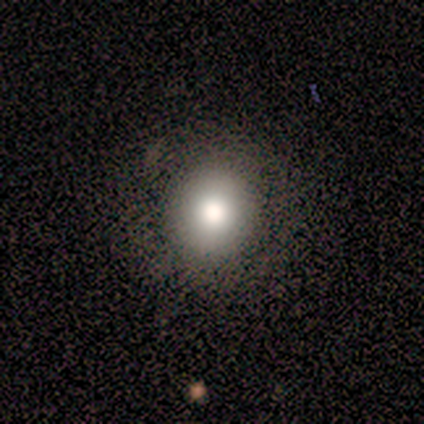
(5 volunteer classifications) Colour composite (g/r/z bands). It shows a smooth galaxy with no disk features (80%) that is round (100%). Merging: none (100%).